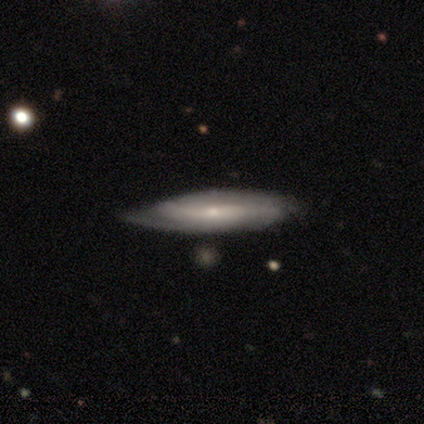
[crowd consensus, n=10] smooth-or-featured: featured or disk: 90% | smooth: 10% | star or artifact: 0%
  disk-edge-on: no: 78% | yes: 22%
    bar: no: 57% | strong: 43% | weak: 0%
    has-spiral-arms: yes: 86% | no: 14%
      spiral-winding: loose: 50% | medium: 33% | tight: 17%
      spiral-arm-count: 2: 67% | 1: 17% | can't tell: 17% | 3: 0% | 4: 0% | more than 4: 0%
    bulge-size: small: 86% | moderate: 14% | dominant: 0% | large: 0% | none: 0%
  merging: none: 70% | minor disturbance: 30% | major disturbance: 0% | merger: 0%